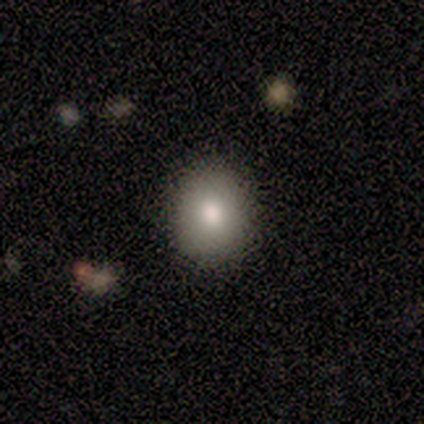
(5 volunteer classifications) Smooth or featured? 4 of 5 (80%) said smooth. How rounded? 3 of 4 (75%) said round. Merging? 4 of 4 (100%) said none.